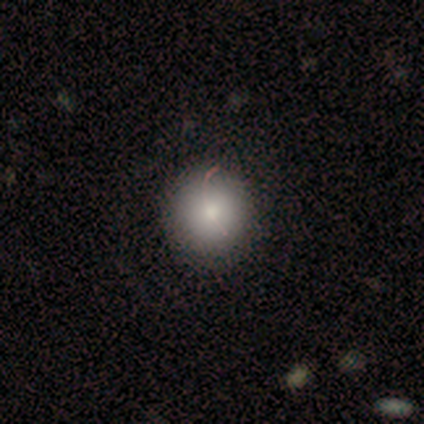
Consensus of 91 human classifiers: Smooth or featured: smooth — 84% (star or artifact — 11%)
How rounded: round — 97% (in between — 3%)
Merging: none — 85% (minor disturbance — 11%)